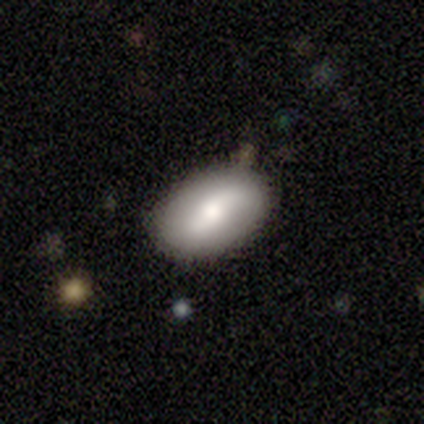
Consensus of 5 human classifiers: smooth 60%, featured or disk 40%, star or artifact 0%. Down the decision tree: how rounded — in between (100%); merging — none (100%).